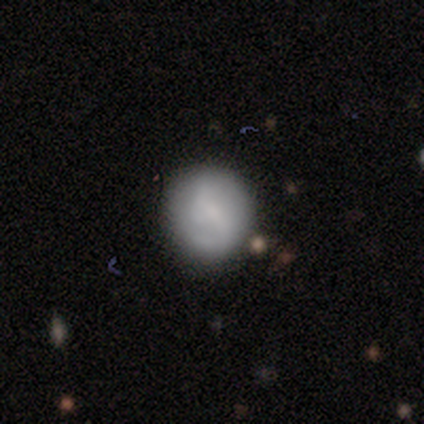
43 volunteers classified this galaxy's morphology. A smooth galaxy with no disk features (63%) that is round (96%).

Vote fractions:
- Smooth or featured? smooth: 63% / featured or disk: 33% / star or artifact: 5%
- How rounded? round: 96% / in between: 4% / cigar-shaped: 0%
- Merging? none: 78% / minor disturbance: 12% / major disturbance: 5% / merger: 5%